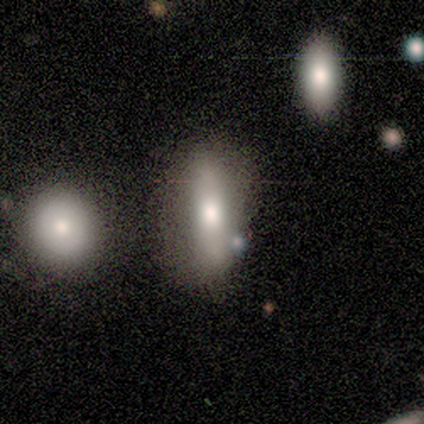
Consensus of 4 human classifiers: smooth 50% (tied), featured or disk 50% (tied), star or artifact 0%. Down the decision tree: how rounded — in between (50%, tied with cigar-shaped); merging — none (75%).